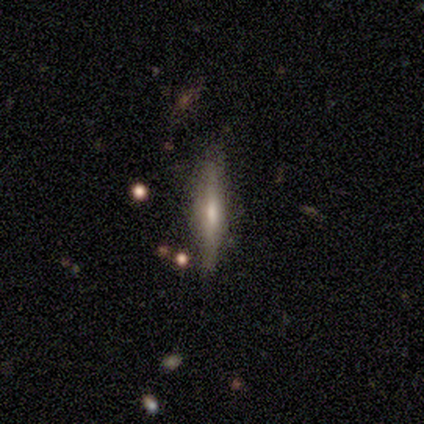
Smooth or featured: featured or disk — 40% (tied with star or artifact — 40%)
Edge-on disk: yes — 50% (tied with no — 50%)
Edge-on bulge: rounded — 100%
Merging: none — 100%